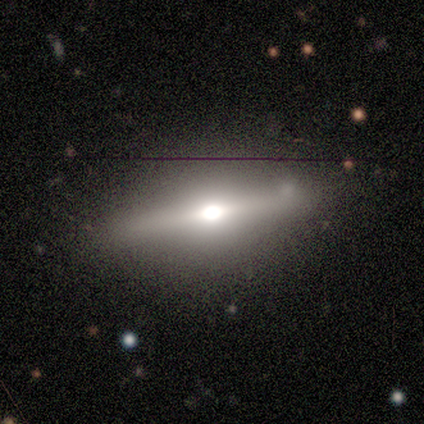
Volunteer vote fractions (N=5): Q: Smooth or featured?
A: featured or disk (60%); runner-up: smooth (40%)
Q: Edge-on disk?
A: yes (100%)
Q: Edge-on bulge?
A: rounded (100%)
Q: Merging?
A: none (80%); runner-up: minor disturbance (20%)